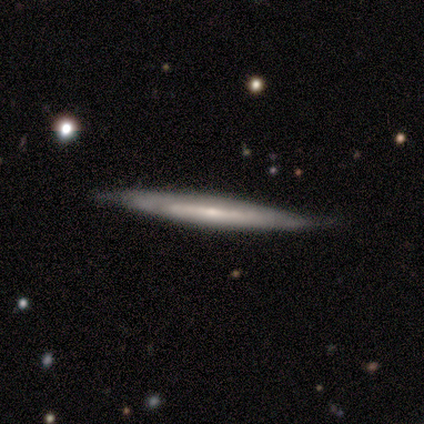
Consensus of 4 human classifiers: Smooth or featured? featured or disk (100%)
Edge-on disk? yes (100%)
Edge-on bulge? none (75%)
Merging? minor disturbance (75%)